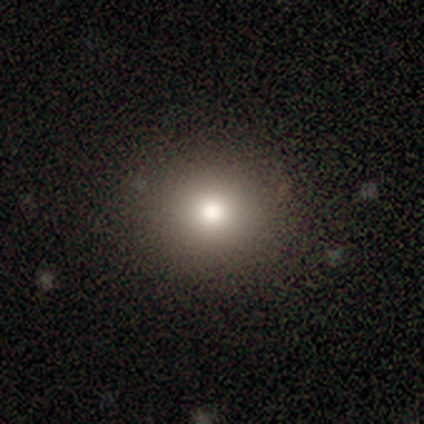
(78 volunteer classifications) This is likely a smooth galaxy (77%). How rounded: clearly round (87%). Merging: possibly none (48%).